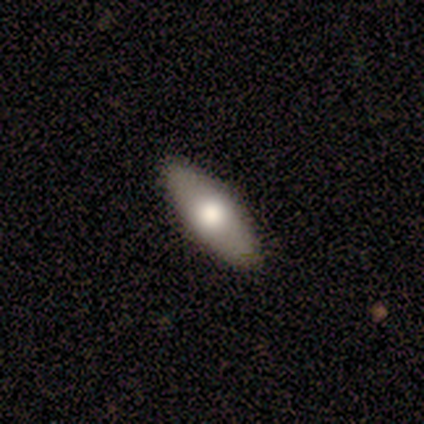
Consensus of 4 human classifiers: smooth-or-featured: smooth: 100% | featured or disk: 0% | star or artifact: 0%
  how-rounded: in between: 75% | round: 25% | cigar-shaped: 0%
  merging: none: 100% | minor disturbance: 0% | major disturbance: 0% | merger: 0%